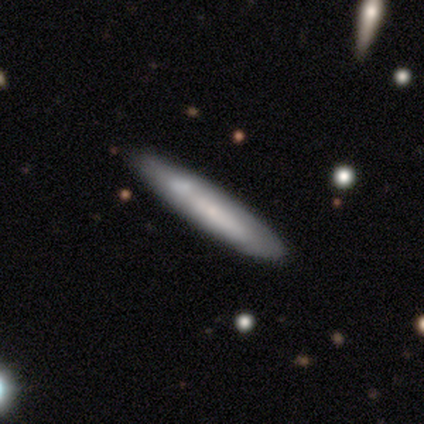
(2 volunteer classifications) smooth_or_featured: smooth (p=1.00)
how_rounded: cigar-shaped (p=1.00)
merging: none (p=0.50) [tied with: minor disturbance p=0.50]